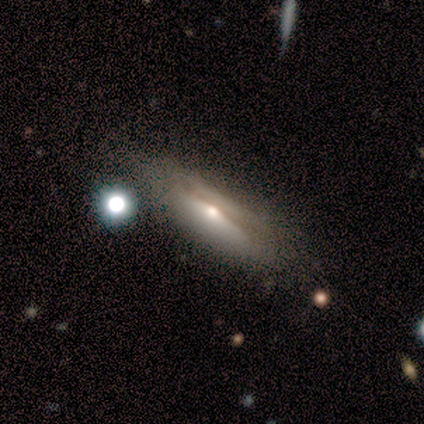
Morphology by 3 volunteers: Smooth or featured: smooth — 33% (tied with featured or disk — 33%; star or artifact — 33%)
How rounded: in between — 100%
Merging: none — 50% (tied with minor disturbance — 50%)